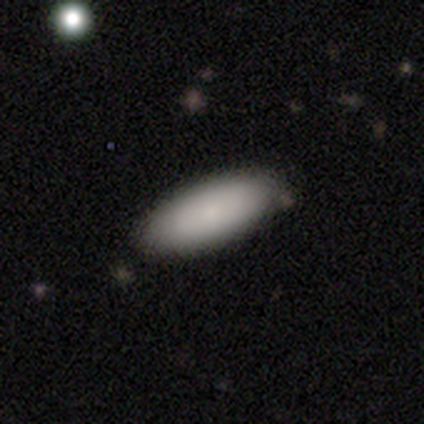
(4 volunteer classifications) Smooth or featured? smooth (75%)
How rounded? in between (100%)
Merging? none (75%)